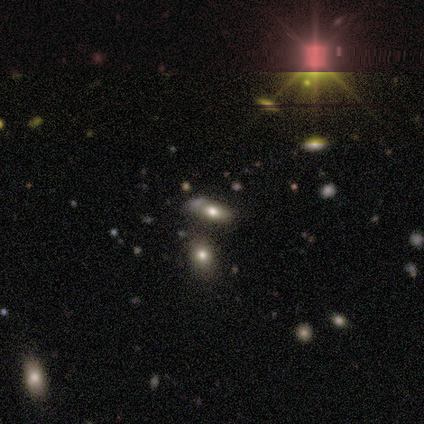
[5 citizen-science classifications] Smooth or featured? smooth (40%, tied with star or artifact)
How rounded? in between (100%)
Merging? none (67%)